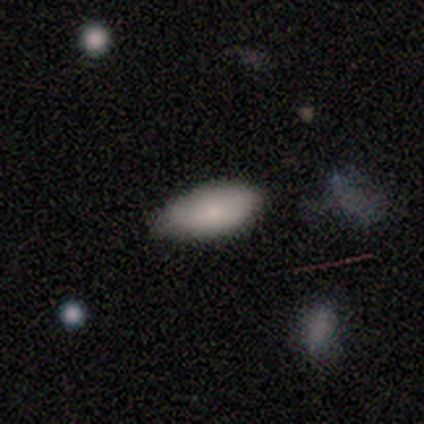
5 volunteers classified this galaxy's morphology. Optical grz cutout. It shows a smooth galaxy with no disk features (80%) that is in between round and cigar-shaped (100%). Merging: none (100%).